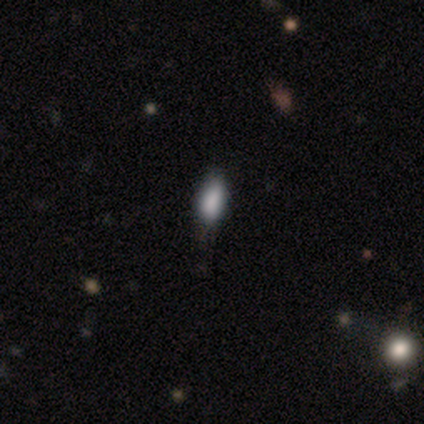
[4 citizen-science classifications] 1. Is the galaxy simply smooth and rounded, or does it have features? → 75% smooth, 25% star or artifact, 0% featured or disk.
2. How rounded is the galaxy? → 100% in between, 0% round, 0% cigar-shaped.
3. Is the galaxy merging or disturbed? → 100% none, 0% minor disturbance, 0% major disturbance, 0% merger.